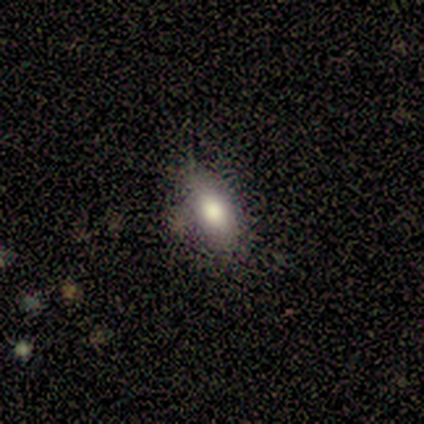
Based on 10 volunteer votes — smooth-or-featured: smooth: 50% | featured or disk: 40% | star or artifact: 10%
  how-rounded: in between: 80% | cigar-shaped: 20% | round: 0%
  merging: none: 100% | minor disturbance: 0% | major disturbance: 0% | merger: 0%